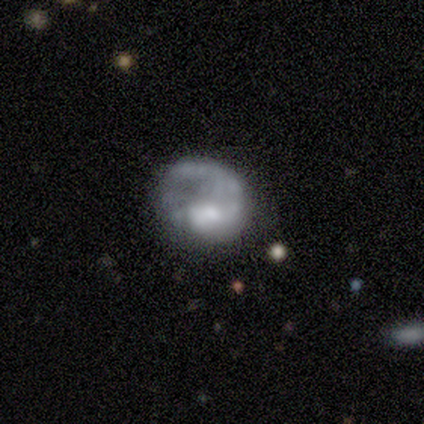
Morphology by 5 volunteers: This is clearly a featured or disk galaxy (80%). It is clearly not viewed edge-on (100%). Bar: clearly no (100%). Spiral arm pattern: possibly yes (50%, tied with no). Spiral arm count: clearly 1 (100%). Spiral winding: possibly medium (50%, tied with loose). Central bulge: possibly moderate (50%). Merging: marginally none (40%, tied with major disturbance).